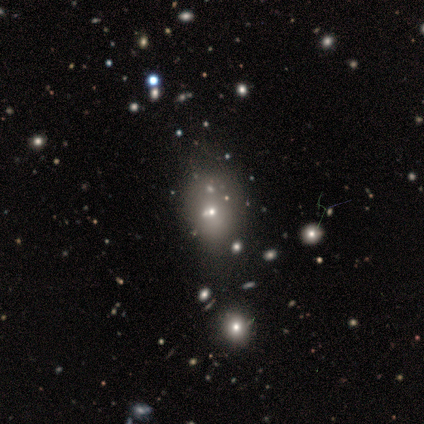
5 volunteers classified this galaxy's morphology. Smooth or featured? smooth (80%)
How rounded? round (75%)
Merging? none (100%)